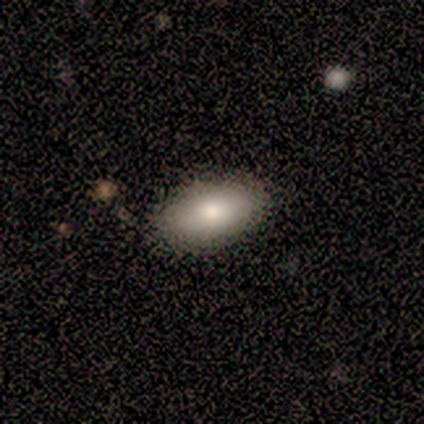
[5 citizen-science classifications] Overall: smooth (60%; featured or disk 20%). How rounded: in between (100%). Merging: none (75%).